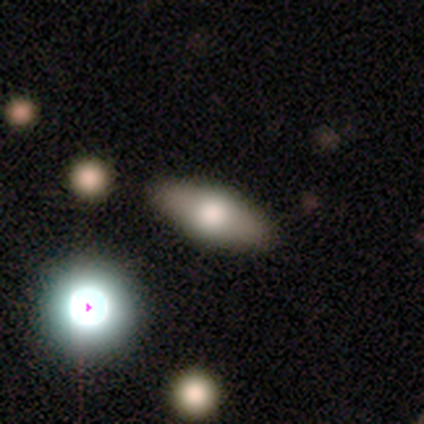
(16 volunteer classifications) smooth 81%, featured or disk 12%, star or artifact 6%. Down the decision tree: how rounded — in between (85%); merging — none (87%).